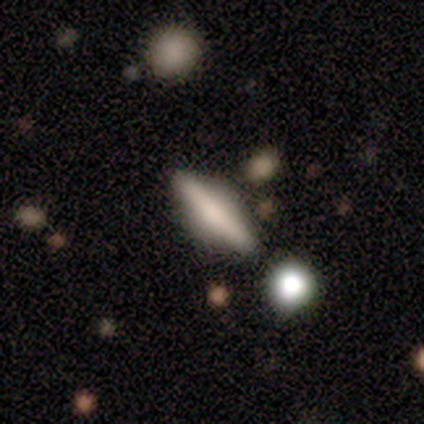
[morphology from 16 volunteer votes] type=smooth (56%); roundness=cigar-shaped (67%); merging=none (62%).